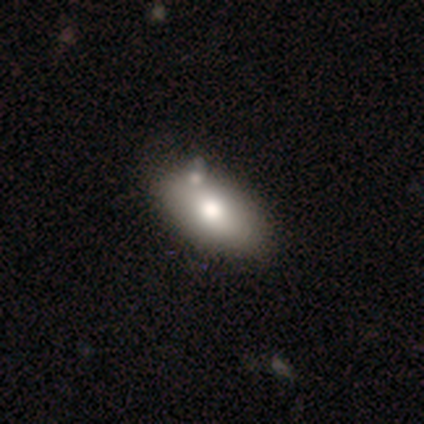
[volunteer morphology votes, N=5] Smooth or featured?
  - smooth: 40% * (tied)
  - star or artifact: 40% * (tied)
  - featured or disk: 20%
How rounded?
  - in between: 100% *
  - round: 0%
  - cigar-shaped: 0%
Merging?
  - none: 67% *
  - merger: 33%
  - minor disturbance: 0%
  - major disturbance: 0%